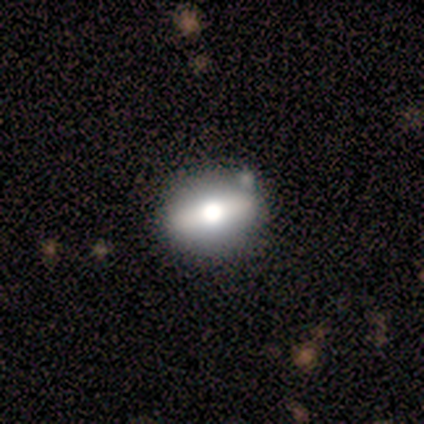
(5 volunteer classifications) A featured or disk galaxy (60%) with a strong bar (50%, tied with no), 3 (100%) tight (100%) spiral arms (50%, tied with no) and a moderate central bulge (100%). Merging: none (60%).